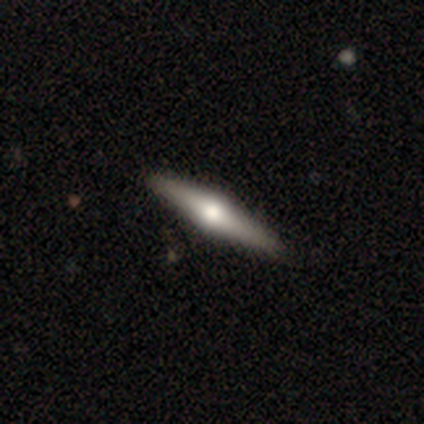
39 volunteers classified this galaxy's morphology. A featured or disk galaxy (77%) viewed edge-on (97%) with a rounded central bulge (97%). Merging: none (55%).